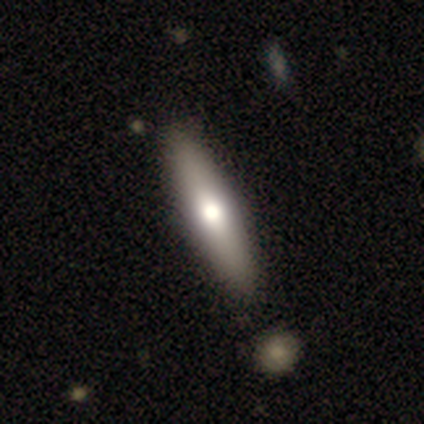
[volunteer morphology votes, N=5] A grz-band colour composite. It shows a smooth galaxy with no disk features (60%) that is cigar-shaped (67%). Merging: none (100%).